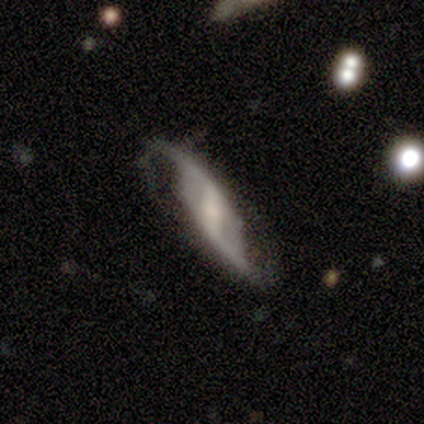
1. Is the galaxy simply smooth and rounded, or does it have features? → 92% featured or disk, 8% smooth, 0% star or artifact.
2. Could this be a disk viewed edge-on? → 83% no, 17% yes.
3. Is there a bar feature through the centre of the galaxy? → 60% strong, 40% weak, 0% no.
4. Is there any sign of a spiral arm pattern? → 100% yes, 0% no.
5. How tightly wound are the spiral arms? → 80% loose, 20% medium, 0% tight.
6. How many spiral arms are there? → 100% 2, 0% 1, 0% 3, 0% 4, 0% more than 4, 0% can't tell.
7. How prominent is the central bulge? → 50% small, 40% moderate, 10% large, 0% dominant, 0% none.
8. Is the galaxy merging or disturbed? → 77% none, 23% minor disturbance, 0% major disturbance, 0% merger.